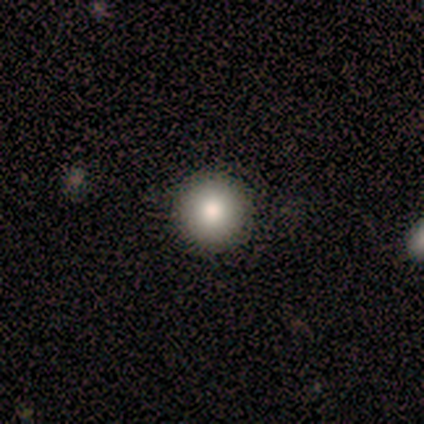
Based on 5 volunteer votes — Smooth or featured?
  - smooth: 80% *
  - featured or disk: 20%
  - star or artifact: 0%
How rounded?
  - round: 100% *
  - in between: 0%
  - cigar-shaped: 0%
Merging?
  - none: 100% *
  - minor disturbance: 0%
  - major disturbance: 0%
  - merger: 0%